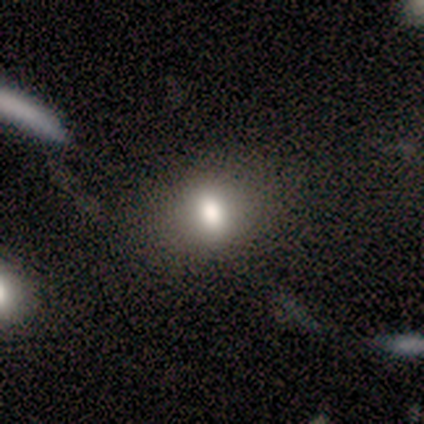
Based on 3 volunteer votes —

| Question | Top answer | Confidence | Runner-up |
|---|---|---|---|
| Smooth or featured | smooth | 100% | — |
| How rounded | in between | 67% | round (33%) |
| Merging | none | 67% | minor disturbance (33%) |